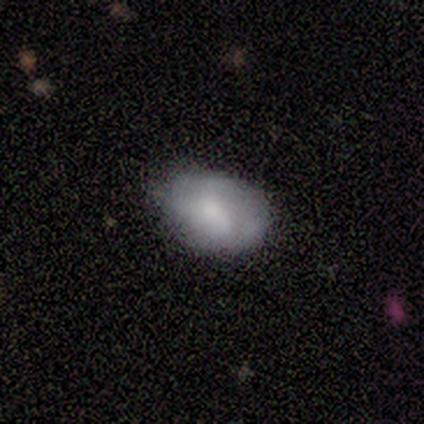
Smooth or featured: smooth — 60% (featured or disk — 40%)
How rounded: in between — 100%
Merging: none — 60% (minor disturbance — 20%)